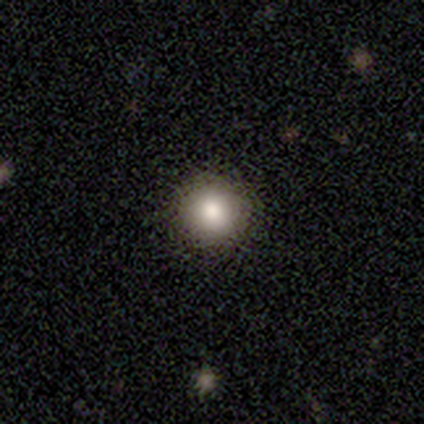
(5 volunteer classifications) Volunteers were most divided on "merging": none: 75%, major disturbance: 25%, minor disturbance: 0%, merger: 0%. More confident: how rounded — round (100%); smooth or featured — smooth (80%).